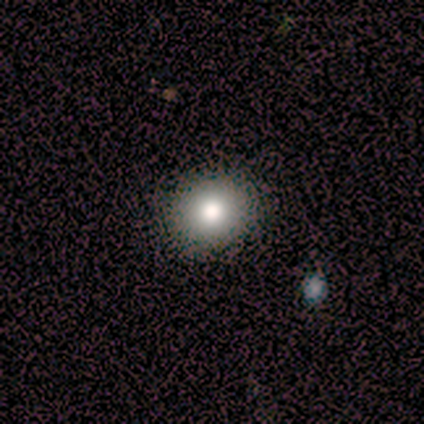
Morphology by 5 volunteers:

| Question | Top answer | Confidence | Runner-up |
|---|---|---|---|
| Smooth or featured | smooth | 100% | — |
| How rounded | round | 80% | in between (20%) |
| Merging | none | 80% | merger (20%) |